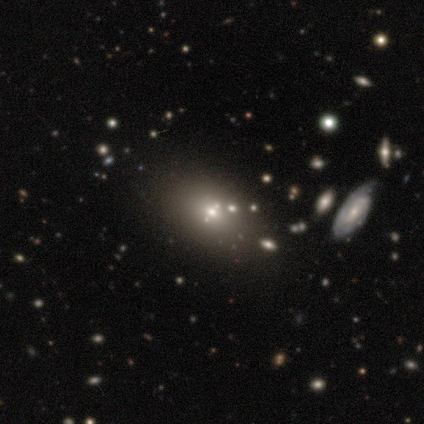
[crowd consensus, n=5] Smooth or featured?
  - star or artifact: 60% *
  - featured or disk: 40%
  - smooth: 0%